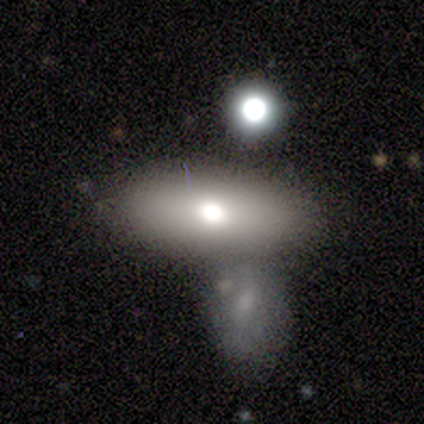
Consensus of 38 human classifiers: smooth-or-featured: smooth: 79% | featured or disk: 13% | star or artifact: 8%
  how-rounded: in between: 90% | cigar-shaped: 10% | round: 0%
  merging: merger: 51% | none: 6% | minor disturbance: 3% | major disturbance: 0%